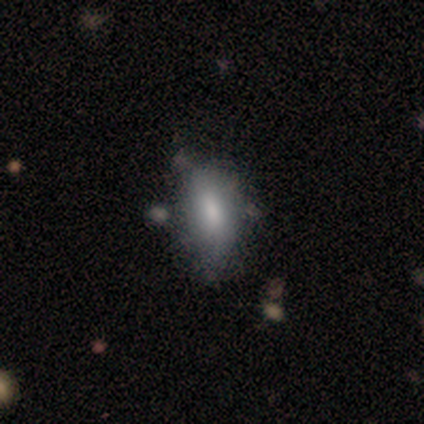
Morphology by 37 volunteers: A smooth galaxy with no disk features (81%) that is in between round and cigar-shaped (87%).

Vote fractions:
- Smooth or featured? smooth: 81% / featured or disk: 16% / star or artifact: 3%
- How rounded? in between: 87% / cigar-shaped: 13% / round: 0%
- Merging? none: 44% / minor disturbance: 28% / major disturbance: 8% / merger: 6%